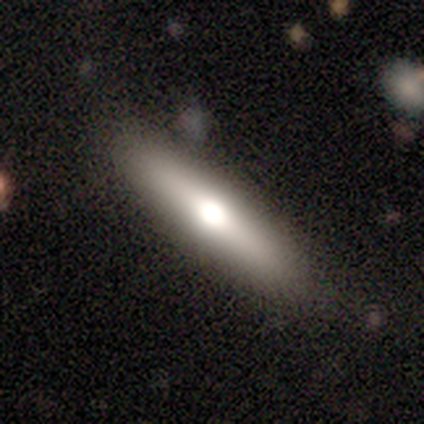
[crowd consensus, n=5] Smooth or featured? 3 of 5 (60%) said featured or disk. Edge-on disk? 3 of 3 (100%) said yes. Edge-on bulge? 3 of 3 (100%) said rounded. Merging? 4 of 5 (80%) said none.